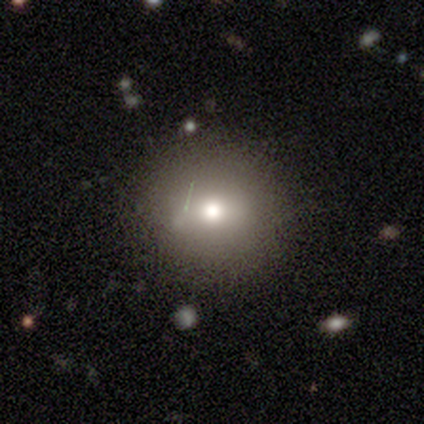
Smooth or featured?
  - smooth: 50% *
  - featured or disk: 25%
  - star or artifact: 25%
How rounded?
  - round: 100% *
  - in between: 0%
  - cigar-shaped: 0%
Merging?
  - none: 100% *
  - minor disturbance: 0%
  - major disturbance: 0%
  - merger: 0%